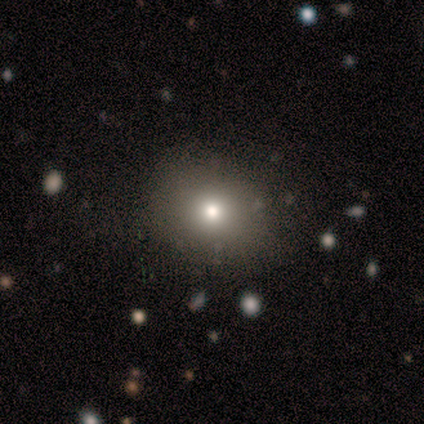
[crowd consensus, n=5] A smooth galaxy with no disk features (80%) that is round (100%).

Vote fractions:
- Smooth or featured? smooth: 80% / star or artifact: 20% / featured or disk: 0%
- How rounded? round: 100% / in between: 0% / cigar-shaped: 0%
- Merging? none: 75% / major disturbance: 25% / minor disturbance: 0% / merger: 0%